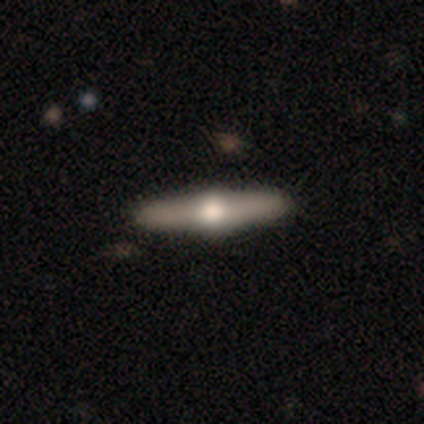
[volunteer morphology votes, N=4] Smooth or featured?
  - featured or disk: 75% *
  - smooth: 25%
  - star or artifact: 0%
Edge-on disk?
  - yes: 100% *
  - no: 0%
Edge-on bulge?
  - rounded: 100% *
  - boxy: 0%
  - none: 0%
Merging?
  - none: 100% *
  - minor disturbance: 0%
  - major disturbance: 0%
  - merger: 0%